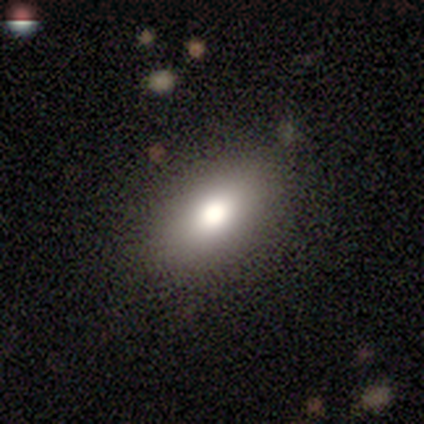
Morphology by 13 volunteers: smooth-or-featured: smooth: 85% | featured or disk: 8% | star or artifact: 8%
  how-rounded: in between: 91% | round: 9% | cigar-shaped: 0%
  merging: none: 83% | minor disturbance: 8% | major disturbance: 8% | merger: 0%